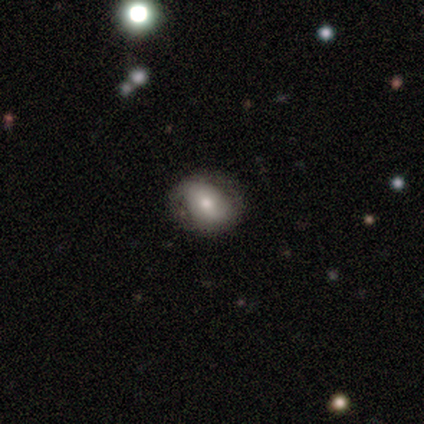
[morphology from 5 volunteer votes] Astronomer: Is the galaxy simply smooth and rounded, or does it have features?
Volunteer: featured or disk — 40%, tied with star or artifact at 40%.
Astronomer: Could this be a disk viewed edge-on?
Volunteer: no — 100%.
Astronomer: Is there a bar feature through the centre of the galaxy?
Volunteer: no — 100%.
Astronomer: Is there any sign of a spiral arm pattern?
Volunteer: yes — 50%, tied with no at 50%.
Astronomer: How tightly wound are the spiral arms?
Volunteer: loose — 100%.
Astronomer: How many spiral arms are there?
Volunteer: can't tell — 100%.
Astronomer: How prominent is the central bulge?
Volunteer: moderate — 100%.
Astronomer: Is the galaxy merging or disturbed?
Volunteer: none — 100%.